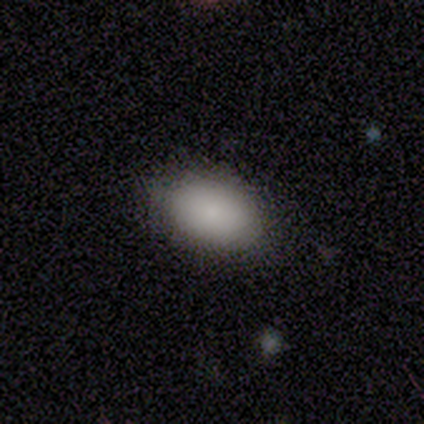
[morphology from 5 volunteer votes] smooth 100%, featured or disk 0%, star or artifact 0%. Down the decision tree: how rounded — in between (100%); merging — none (80%).